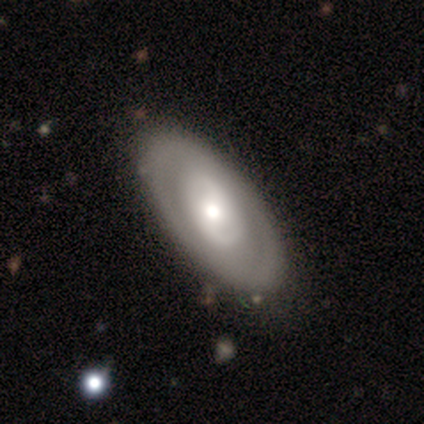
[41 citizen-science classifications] featured or disk 90%, smooth 10%, star or artifact 0%. Down the decision tree: edge-on disk — no (92%); bar — no (59%); spiral arms — no (62%); bulge size — moderate (56%); merging — none (80%).